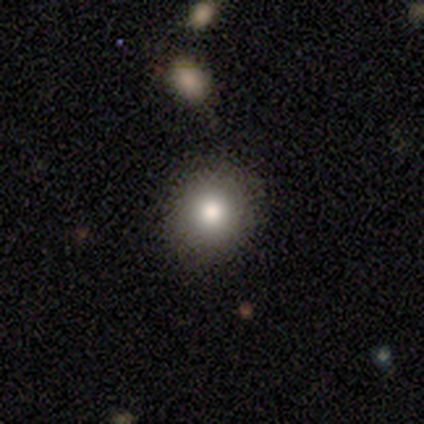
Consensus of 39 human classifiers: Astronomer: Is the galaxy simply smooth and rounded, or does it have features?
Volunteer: smooth — 82%.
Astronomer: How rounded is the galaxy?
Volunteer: round — 97%.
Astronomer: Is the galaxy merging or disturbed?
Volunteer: none — 83%.